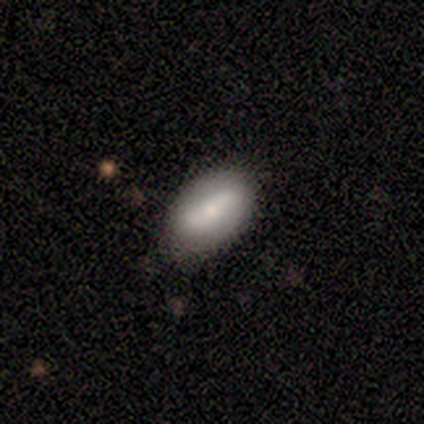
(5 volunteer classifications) Smooth or featured? 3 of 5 (60%) said smooth. How rounded? 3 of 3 (100%) said in between. Merging? 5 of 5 (100%) said none.